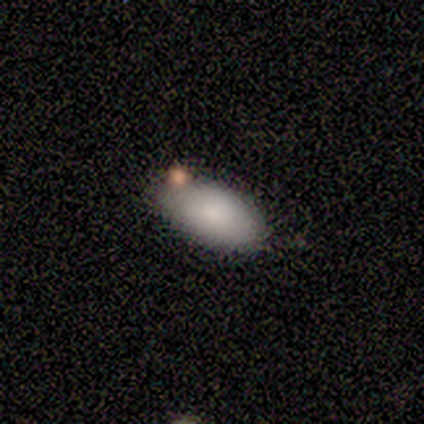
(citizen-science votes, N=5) smooth-or-featured: smooth: 80% | featured or disk: 20% | star or artifact: 0%
  how-rounded: in between: 100% | round: 0% | cigar-shaped: 0%
  merging: none: 80% | merger: 20% | minor disturbance: 0% | major disturbance: 0%